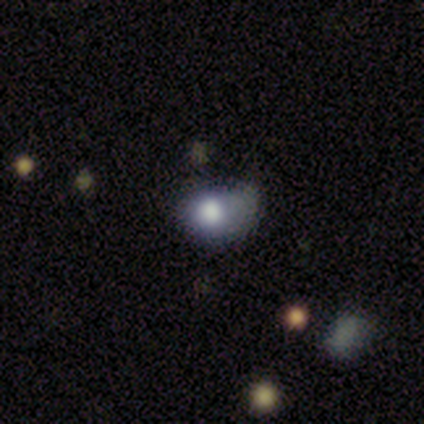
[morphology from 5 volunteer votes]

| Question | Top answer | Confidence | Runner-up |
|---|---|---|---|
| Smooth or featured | smooth | 100% | — |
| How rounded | in between | 60% | round (40%) |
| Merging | none | 40% | tied: minor disturbance (40%) |